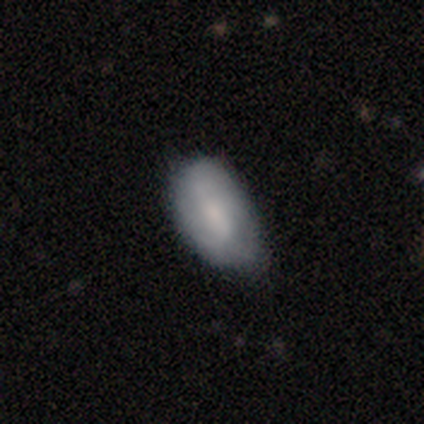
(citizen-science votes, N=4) Smooth or featured? smooth (75%)
How rounded? in between (100%)
Merging? minor disturbance (100%)